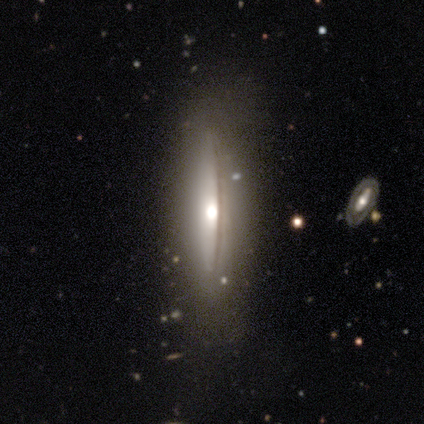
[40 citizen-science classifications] Smooth or featured? featured or disk (62%)
Edge-on disk? yes (84%)
Edge-on bulge? rounded (76%)
Merging? none (66%)